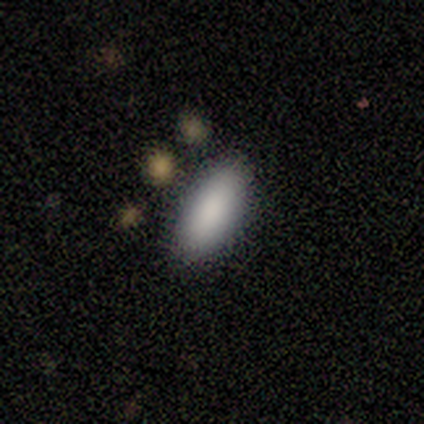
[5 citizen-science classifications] Smooth or featured: smooth — 100%
How rounded: in between — 60% (cigar-shaped — 40%)
Merging: none — 80% (minor disturbance — 20%)